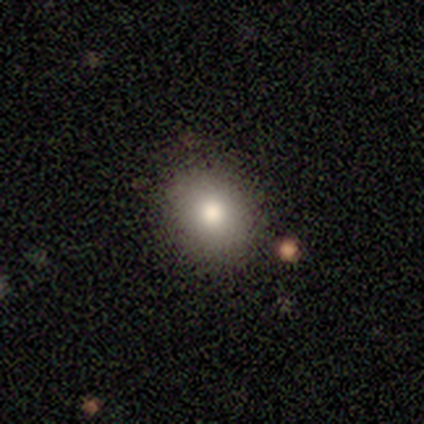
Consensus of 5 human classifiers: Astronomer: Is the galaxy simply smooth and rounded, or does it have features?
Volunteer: smooth — 100%.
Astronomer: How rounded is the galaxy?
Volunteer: round — 60% (runner-up: in between, 40%).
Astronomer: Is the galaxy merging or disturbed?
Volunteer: none — 100%.